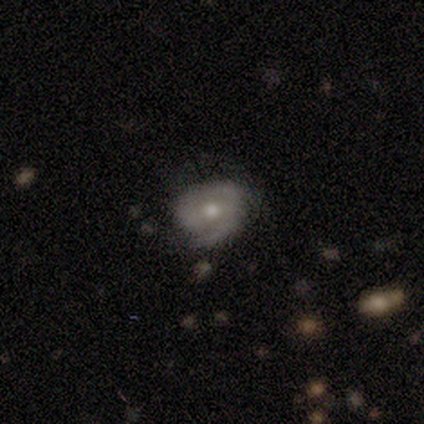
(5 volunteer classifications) A featured or disk galaxy (60%) with a strong bar (33%, tied with weak and no), 2 (67%) tight (100%) spiral arms (100%) and a moderate central bulge (100%). Merging: none (60%).